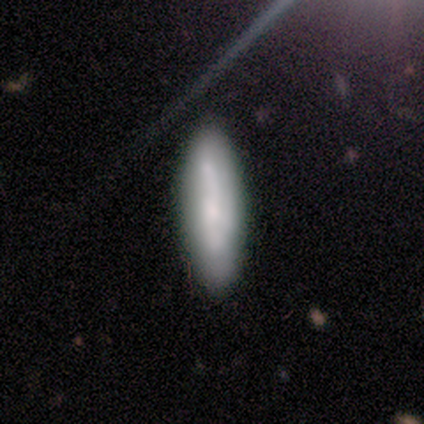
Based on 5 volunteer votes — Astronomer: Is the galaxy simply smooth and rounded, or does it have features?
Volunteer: smooth — 60% (runner-up: featured or disk, 40%).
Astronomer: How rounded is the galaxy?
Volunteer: in between — 100%.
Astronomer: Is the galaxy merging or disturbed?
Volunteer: none — 80%.